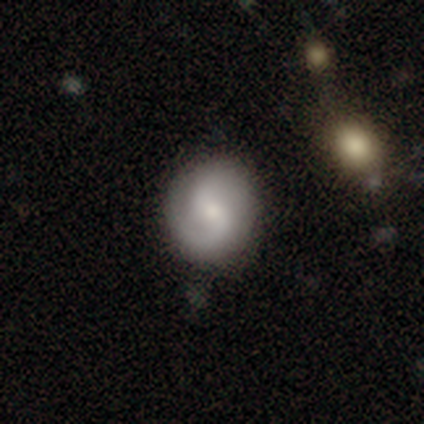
A featured or disk galaxy (63%) with a weak bar (58%), 2 (82%) loose (45%) spiral arms (96%) and a small central bulge (49%).

Vote fractions:
- Smooth or featured? featured or disk: 63% / smooth: 29% / star or artifact: 8%
- Edge-on disk? no: 97% / yes: 3%
- Bar? weak: 58% / no: 37% / strong: 5%
- Spiral arms? yes: 96% / no: 4%
- Spiral winding? loose: 45% / medium: 38% / tight: 16%
- Spiral arm count? 2: 82% / 1: 9% / can't tell: 9% / 3: 0% / 4: 0% / more than 4: 0%
- Bulge size? small: 49% / moderate: 46% / large: 4% / none: 2% / dominant: 0%
- Merging? none: 80% / minor disturbance: 16% / major disturbance: 2% / merger: 1%